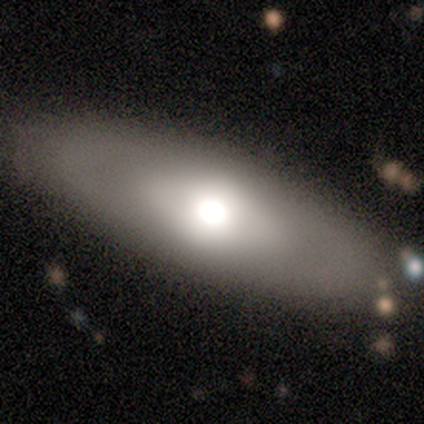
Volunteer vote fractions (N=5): Overall: smooth (100%). How rounded: in between (100%). Merging: none (100%).